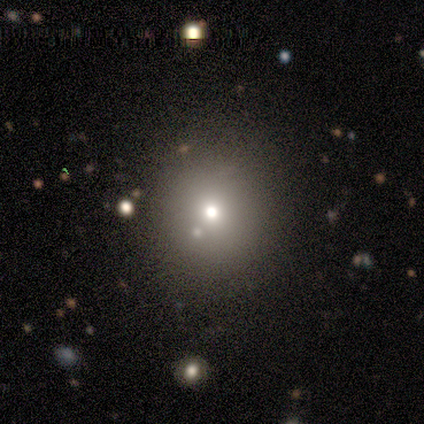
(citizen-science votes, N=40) smooth-or-featured: smooth: 75% | star or artifact: 15% | featured or disk: 10%
  how-rounded: round: 87% | in between: 13% | cigar-shaped: 0%
  merging: none: 88% | minor disturbance: 6% | major disturbance: 6% | merger: 0%